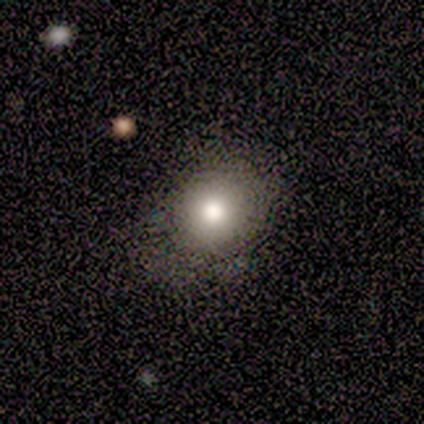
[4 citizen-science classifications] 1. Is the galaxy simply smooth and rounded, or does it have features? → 50% smooth (tied), 50% featured or disk (tied), 0% star or artifact.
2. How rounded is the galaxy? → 100% round, 0% in between, 0% cigar-shaped.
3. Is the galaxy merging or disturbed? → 100% none, 0% minor disturbance, 0% major disturbance, 0% merger.